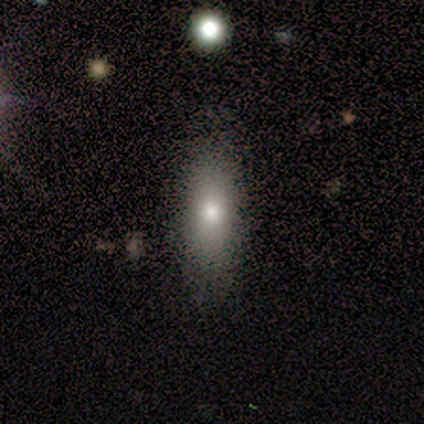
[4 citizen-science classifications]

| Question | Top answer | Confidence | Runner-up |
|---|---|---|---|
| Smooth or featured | smooth | 75% | featured or disk (25%) |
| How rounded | in between | 67% | cigar-shaped (33%) |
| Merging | none | 100% | — |